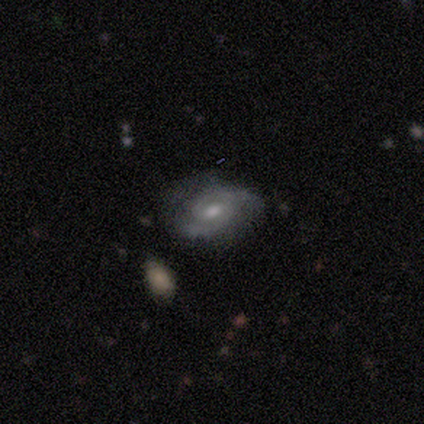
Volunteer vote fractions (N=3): A featured or disk galaxy (67%) with a strong bar (50%, tied with no), 2 (50%, tied with 3) tight (100%) spiral arms (100%) and a moderate central bulge (100%).

Vote fractions:
- Smooth or featured? featured or disk: 67% / smooth: 33% / star or artifact: 0%
- Edge-on disk? no: 100% / yes: 0%
- Bar? strong: 50% (tied) / no: 50% (tied) / weak: 0%
- Spiral arms? yes: 100% / no: 0%
- Spiral winding? tight: 100% / medium: 0% / loose: 0%
- Spiral arm count? 2: 50% (tied) / 3: 50% (tied) / 1: 0% / 4: 0% / more than 4: 0% / can't tell: 0%
- Bulge size? moderate: 100% / dominant: 0% / large: 0% / small: 0% / none: 0%
- Merging? none: 100% / minor disturbance: 0% / major disturbance: 0% / merger: 0%